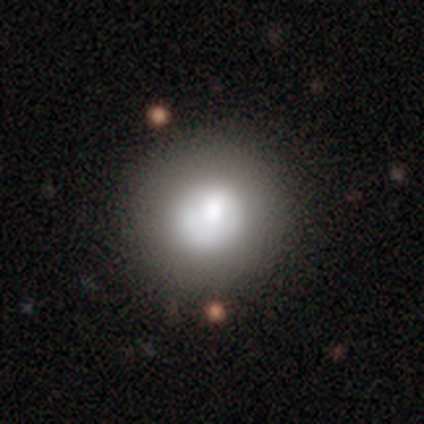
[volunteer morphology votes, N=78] smooth-or-featured: smooth: 74% | featured or disk: 21% | star or artifact: 5%
  how-rounded: round: 95% | in between: 5% | cigar-shaped: 0%
  merging: none: 46% | merger: 7% | minor disturbance: 3% | major disturbance: 1%